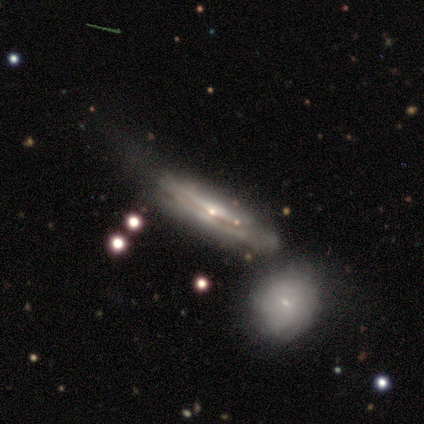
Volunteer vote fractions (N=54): A featured or disk galaxy (81%) viewed edge-on (70%) with a rounded central bulge (55%). Merging: none (40%).